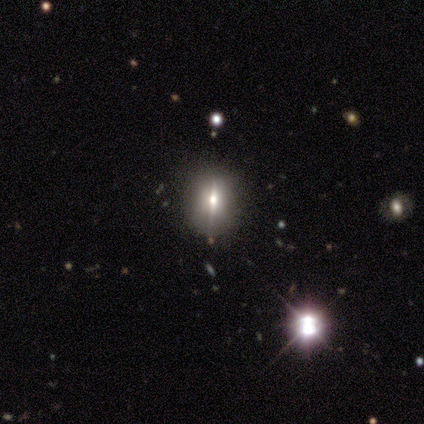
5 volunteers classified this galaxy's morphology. A featured or disk galaxy (40%, tied with star or artifact) viewed edge-on (100%) with a rounded central bulge (100%). Merging: none (67%).